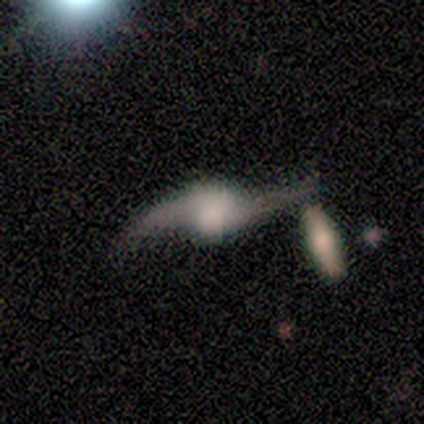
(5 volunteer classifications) featured or disk 80%, star or artifact 20%, smooth 0%. Down the decision tree: edge-on disk — yes (50%, tied with no); edge-on bulge — boxy (50%, tied with rounded); merging — none (50%, tied with minor disturbance).